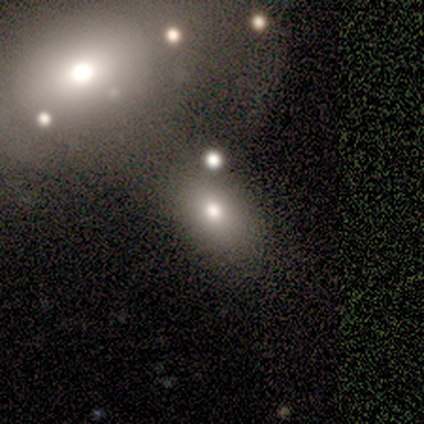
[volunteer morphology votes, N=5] smooth 40% (tied), featured or disk 40% (tied), star or artifact 20%. Down the decision tree: how rounded — in between (100%); merging — none (50%).